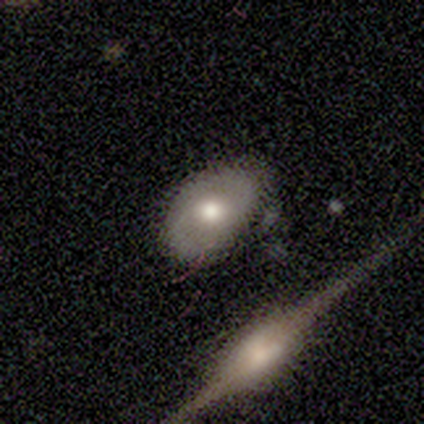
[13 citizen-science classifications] Overall: smooth (69%; featured or disk 31%). How rounded: in between (89%). Merging: none (77%).